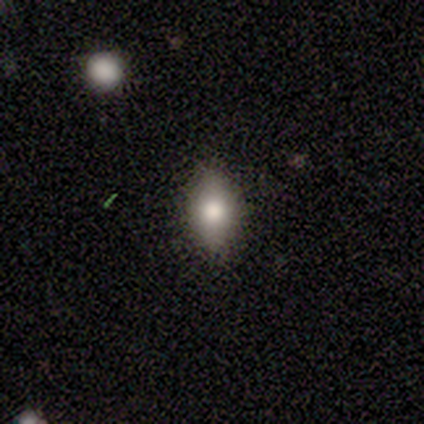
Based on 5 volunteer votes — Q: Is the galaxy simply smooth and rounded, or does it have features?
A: smooth — 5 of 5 (100%).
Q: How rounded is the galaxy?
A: in between — 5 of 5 (100%).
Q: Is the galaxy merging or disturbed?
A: none — 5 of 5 (100%).